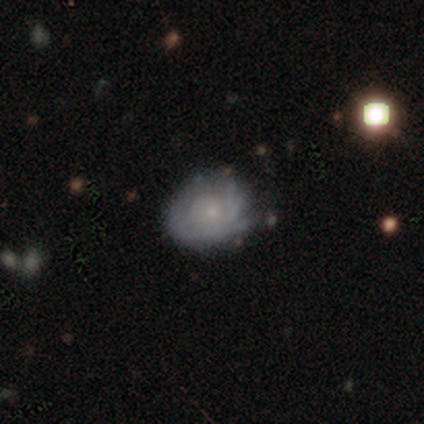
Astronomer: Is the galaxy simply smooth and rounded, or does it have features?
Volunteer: featured or disk — 80%.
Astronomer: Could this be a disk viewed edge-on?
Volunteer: no — 100%.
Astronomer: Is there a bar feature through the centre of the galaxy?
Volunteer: no — 86%.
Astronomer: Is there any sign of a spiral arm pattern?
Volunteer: yes — 76%.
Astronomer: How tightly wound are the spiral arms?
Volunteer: tight — 71%.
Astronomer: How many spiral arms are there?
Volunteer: can't tell — 71%.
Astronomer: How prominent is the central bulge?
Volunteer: small — 67%.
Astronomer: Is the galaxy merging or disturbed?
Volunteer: none — 25% (runner-up: minor disturbance, 21%).